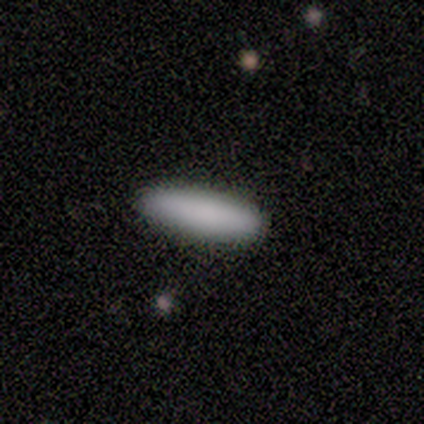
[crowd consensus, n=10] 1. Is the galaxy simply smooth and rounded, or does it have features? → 90% smooth, 10% star or artifact, 0% featured or disk.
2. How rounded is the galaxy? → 89% cigar-shaped, 11% in between, 0% round.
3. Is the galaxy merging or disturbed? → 78% none, 22% minor disturbance, 0% major disturbance, 0% merger.